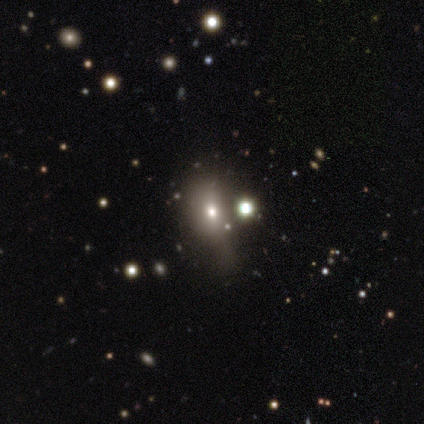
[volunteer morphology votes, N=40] type=smooth (40%); roundness=in between (75%); merging=none (36%).